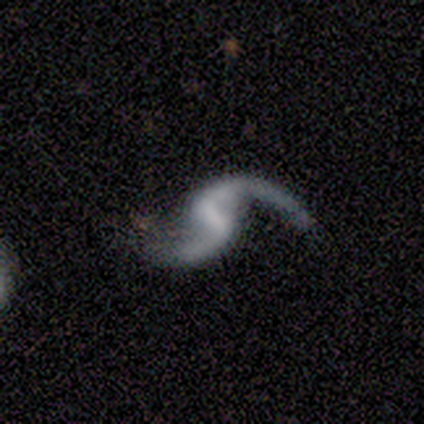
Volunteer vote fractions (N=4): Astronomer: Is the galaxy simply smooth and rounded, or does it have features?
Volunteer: featured or disk — 100%.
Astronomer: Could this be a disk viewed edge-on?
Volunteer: no — 100%.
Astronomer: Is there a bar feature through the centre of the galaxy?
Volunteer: weak — 50%.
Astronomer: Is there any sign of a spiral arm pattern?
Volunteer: yes — 100%.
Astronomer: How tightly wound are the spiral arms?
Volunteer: loose — 75%.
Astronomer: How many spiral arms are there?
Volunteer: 2 — 100%.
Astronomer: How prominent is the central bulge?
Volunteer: small — 50%.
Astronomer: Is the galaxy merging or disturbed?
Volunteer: none — 75%.